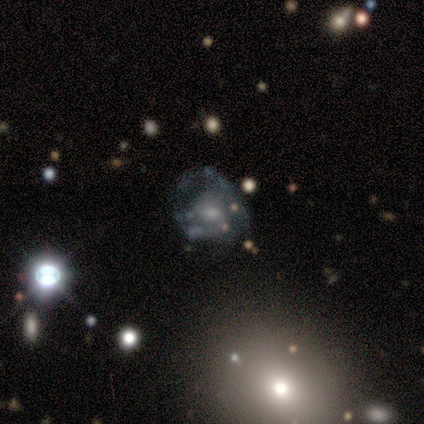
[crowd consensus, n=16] Overall: featured or disk (75%). Edge-on disk: no (100%). Bar: weak (58%; no 42%). Spiral arms: yes (58%; no 42%). Spiral arm count: can't tell (71%). Spiral winding: medium (43%; tight 29%). Bulge size: small (50%; moderate 42%). Merging: major disturbance (53%; minor disturbance 27%).